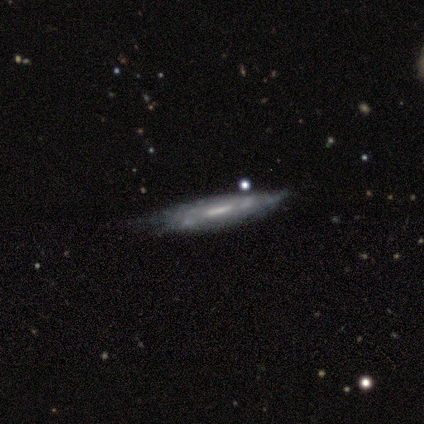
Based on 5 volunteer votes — Volunteers were most divided on "edge-on disk" (2-way tie): yes: 50%, no: 50%; "edge-on bulge" (2-way tie): none: 50%, rounded: 50%, boxy: 0%; "merging" (2-way tie): none: 40%, minor disturbance: 40%, major disturbance: 20%, merger: 0%. More confident: smooth or featured — featured or disk (80%).